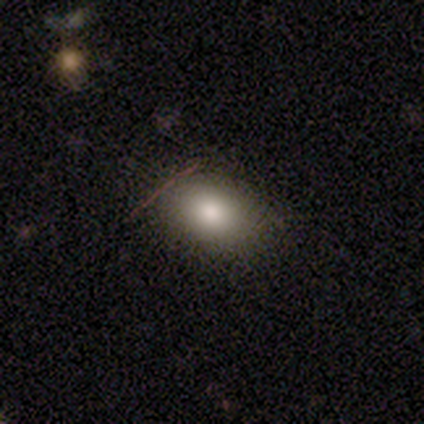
Smooth or featured? smooth (80%)
How rounded? in between (100%)
Merging? none (80%)